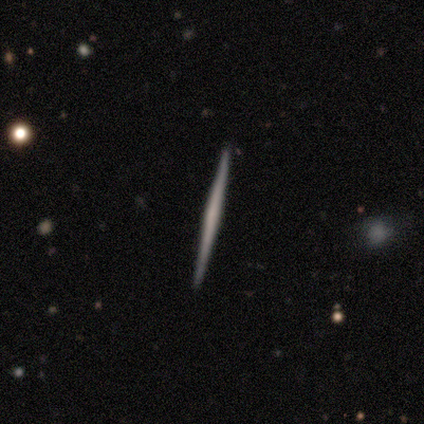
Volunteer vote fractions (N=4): Overall: featured or disk (100%). Edge-on disk: yes (100%). Edge-on bulge: none (75%). Merging: none (100%).